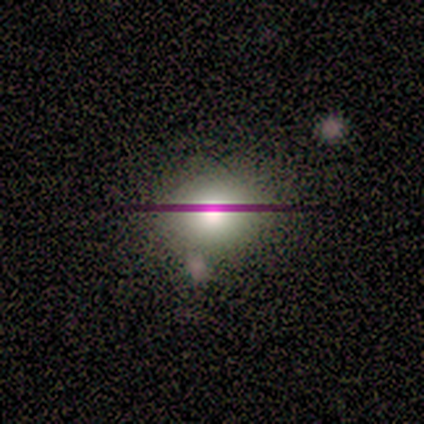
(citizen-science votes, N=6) Smooth or featured? 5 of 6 (83%) said smooth. How rounded? 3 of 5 (60%) said round. Merging? 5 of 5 (100%) said none.